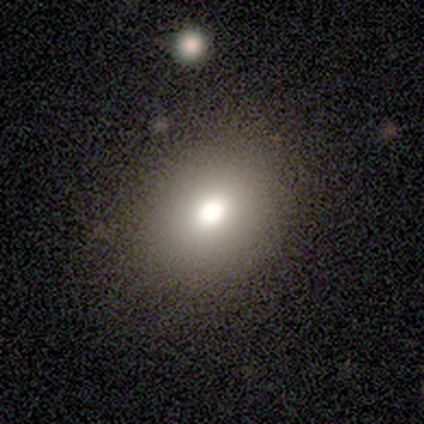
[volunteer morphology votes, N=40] smooth_or_featured: smooth (p=0.78) [alt: featured or disk p=0.12]
how_rounded: round (p=0.65) [alt: in between p=0.35]
merging: none (p=0.39) [alt: minor disturbance p=0.06]